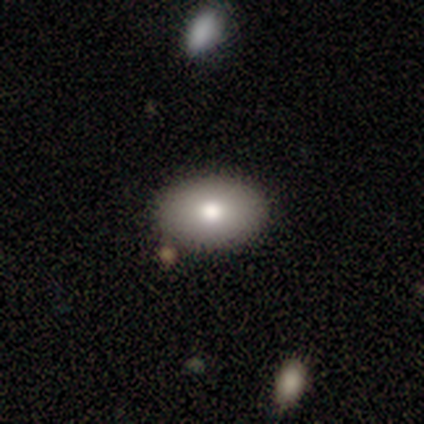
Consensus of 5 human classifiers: smooth-or-featured: smooth: 100% | featured or disk: 0% | star or artifact: 0%
  how-rounded: in between: 80% | round: 20% | cigar-shaped: 0%
  merging: none: 80% | minor disturbance: 20% | major disturbance: 0% | merger: 0%